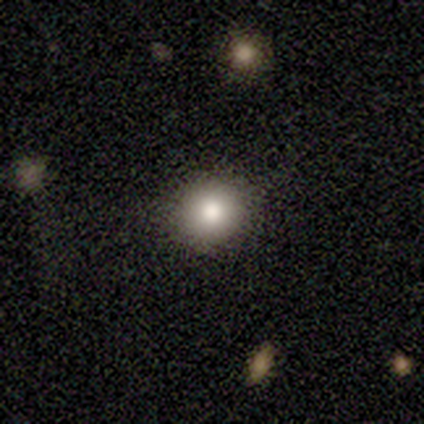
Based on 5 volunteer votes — Q: Smooth or featured?
A: smooth (60%); runner-up: featured or disk (20%)
Q: How rounded?
A: round (100%)
Q: Merging?
A: none (75%); runner-up: minor disturbance (25%)